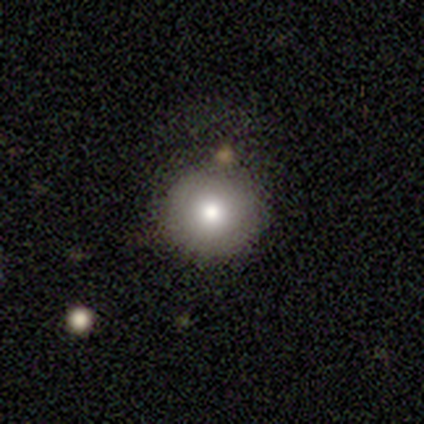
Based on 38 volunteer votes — This appears to be a smooth galaxy with no disk features (92%) that is round (100%). Merging: none (54%).